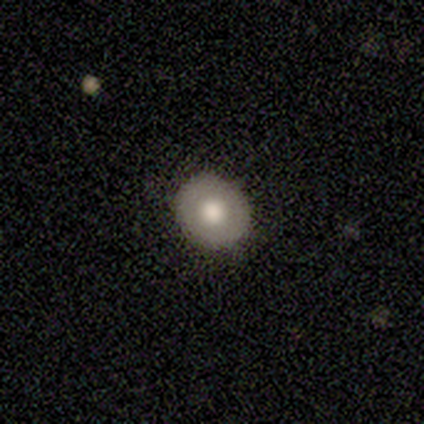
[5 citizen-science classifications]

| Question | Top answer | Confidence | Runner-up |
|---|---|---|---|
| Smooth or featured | smooth | 80% | star or artifact (20%) |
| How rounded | round | 100% | — |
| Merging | none | 75% | minor disturbance (25%) |